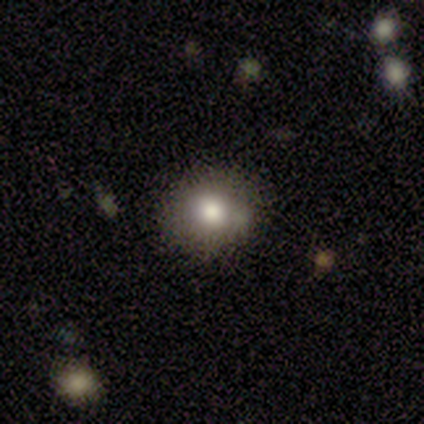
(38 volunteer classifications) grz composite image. It shows a smooth galaxy with no disk features (84%) that is round (78%). Merging: none (75%).